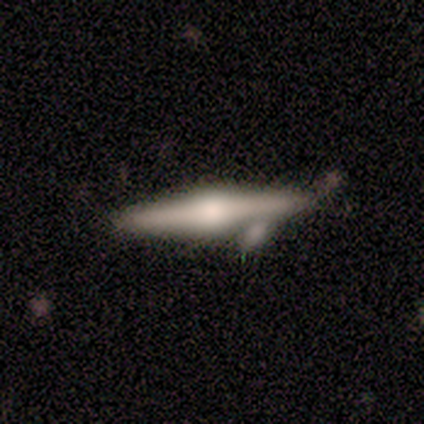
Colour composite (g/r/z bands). It shows a featured or disk galaxy (100%) viewed edge-on (100%) with a rounded central bulge (100%). Merging: none (50%).